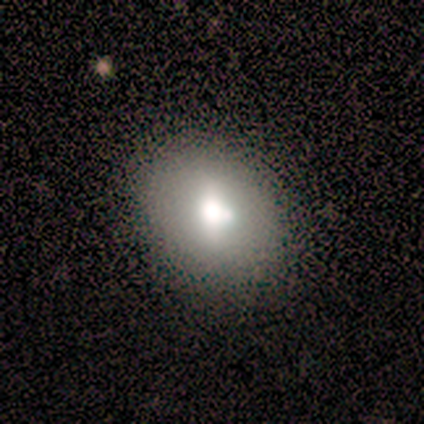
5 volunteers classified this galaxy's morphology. A smooth galaxy with no disk features (80%) that is round (50%, tied with in between).

Vote fractions:
- Smooth or featured? smooth: 80% / featured or disk: 20% / star or artifact: 0%
- How rounded? round: 50% (tied) / in between: 50% (tied) / cigar-shaped: 0%
- Merging? none: 80% / minor disturbance: 20% / major disturbance: 0% / merger: 0%